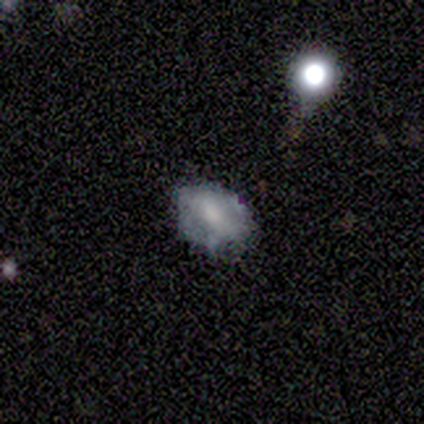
A smooth galaxy with no disk features (50%, tied with featured or disk) that is in between round and cigar-shaped (100%). Merging: major disturbance (50%).